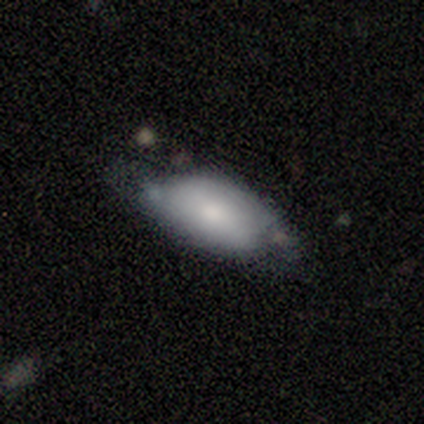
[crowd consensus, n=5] Smooth or featured? smooth (80%)
How rounded? in between (75%)
Merging? none (60%)